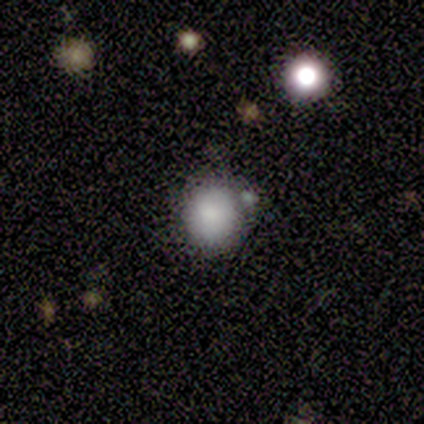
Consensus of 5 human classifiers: smooth-or-featured: smooth: 80% | featured or disk: 20% | star or artifact: 0%
  how-rounded: round: 100% | in between: 0% | cigar-shaped: 0%
  merging: none: 80% | minor disturbance: 20% | major disturbance: 0% | merger: 0%